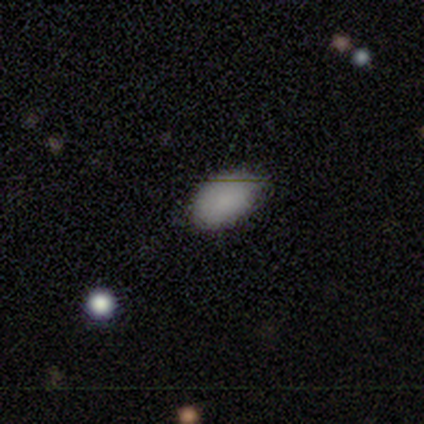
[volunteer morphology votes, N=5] This is clearly a smooth galaxy (100%). How rounded: clearly in between (100%). Merging: likely none (60%).